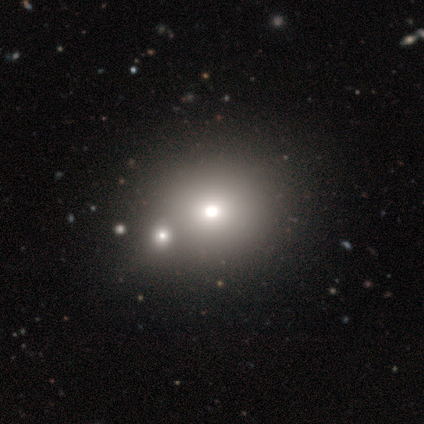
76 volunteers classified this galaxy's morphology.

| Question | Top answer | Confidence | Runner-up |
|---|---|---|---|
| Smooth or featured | smooth | 70% | star or artifact (18%) |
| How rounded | round | 85% | in between (13%) |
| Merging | merger | 44% | none (24%) |